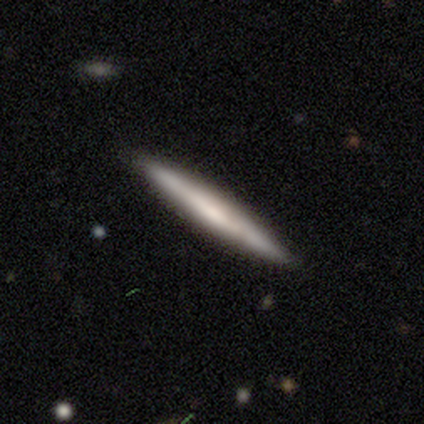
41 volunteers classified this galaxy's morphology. smooth_or_featured: smooth (p=0.51) [alt: featured or disk p=0.49]
how_rounded: cigar-shaped (p=1.00)
merging: none (p=0.98) [alt: minor disturbance p=0.02]